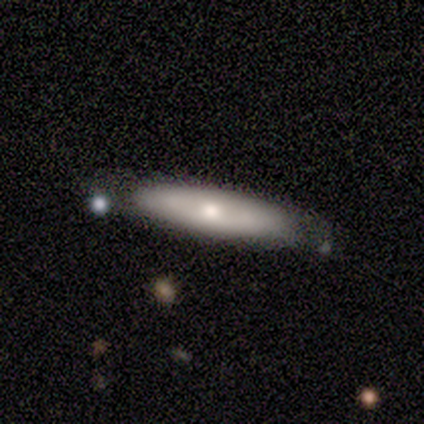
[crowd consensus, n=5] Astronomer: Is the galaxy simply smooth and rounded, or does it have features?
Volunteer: smooth — 60% (runner-up: featured or disk, 40%).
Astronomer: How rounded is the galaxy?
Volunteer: cigar-shaped — 100%.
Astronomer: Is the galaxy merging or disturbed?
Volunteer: minor disturbance — 80%.